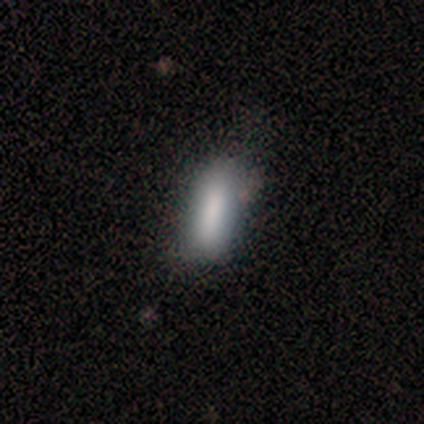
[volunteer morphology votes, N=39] Smooth or featured?
  - smooth: 85% *
  - featured or disk: 15%
  - star or artifact: 0%
How rounded?
  - in between: 48% * (tied)
  - cigar-shaped: 48% * (tied)
  - round: 3%
Merging?
  - none: 36% *
  - minor disturbance: 33%
  - major disturbance: 3%
  - merger: 3%